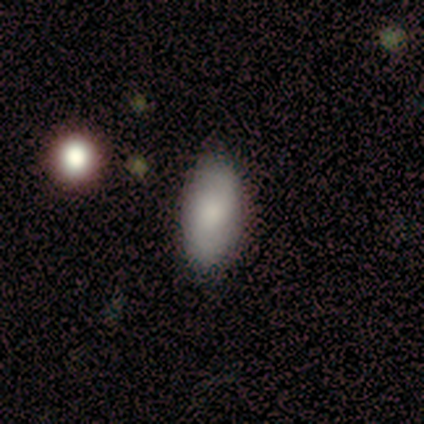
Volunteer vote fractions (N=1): This appears to be a smooth galaxy with no disk features (100%) that is in between round and cigar-shaped (100%). Merging: none (100%).